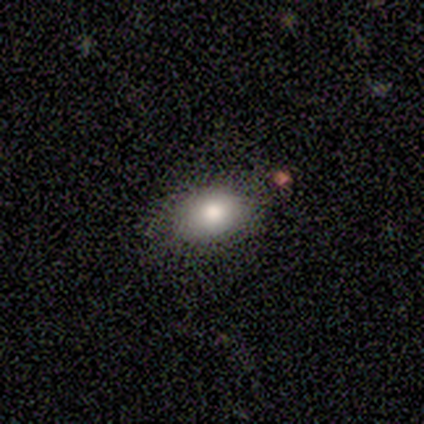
smooth 80%, featured or disk 20%, star or artifact 0%. Down the decision tree: how rounded — in between (100%); merging — none (60%).